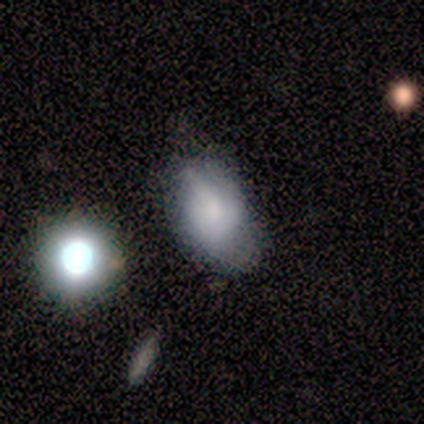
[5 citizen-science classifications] This is marginally a smooth galaxy (40%, tied with featured or disk). How rounded: possibly round (50%, tied with in between). Merging: possibly none (50%).